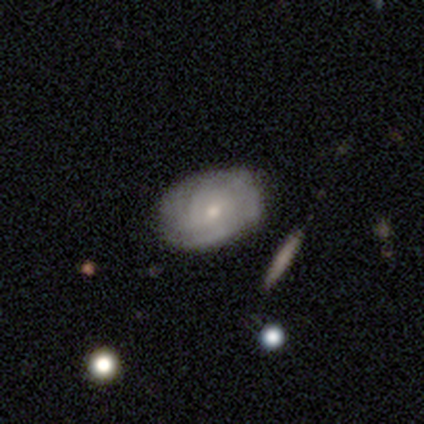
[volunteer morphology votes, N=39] A featured or disk galaxy (72%) with no bar (68%), tight (70%) spiral arms (71%) and a small central bulge (57%).

Vote fractions:
- Smooth or featured? featured or disk: 72% / smooth: 26% / star or artifact: 3%
- Edge-on disk? no: 100% / yes: 0%
- Bar? no: 68% / weak: 32% / strong: 0%
- Spiral arms? yes: 71% / no: 29%
- Spiral winding? tight: 70% / medium: 20% / loose: 10%
- Spiral arm count? can't tell: 65% / 2: 20% / 1: 10% / 4: 5% / 3: 0% / more than 4: 0%
- Bulge size? small: 57% / moderate: 39% / large: 4% / dominant: 0% / none: 0%
- Merging? none: 50% / minor disturbance: 24% / major disturbance: 5% / merger: 3%